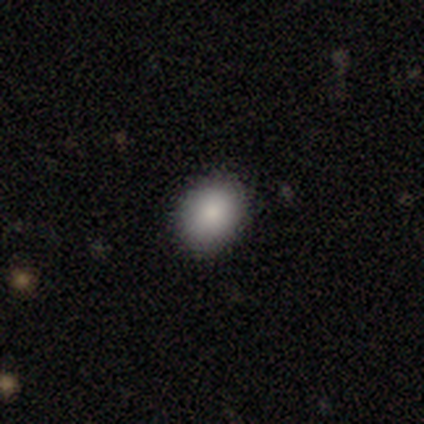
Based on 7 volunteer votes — Smooth or featured: smooth — 86% (star or artifact — 14%)
How rounded: in between — 67% (round — 33%)
Merging: none — 100%